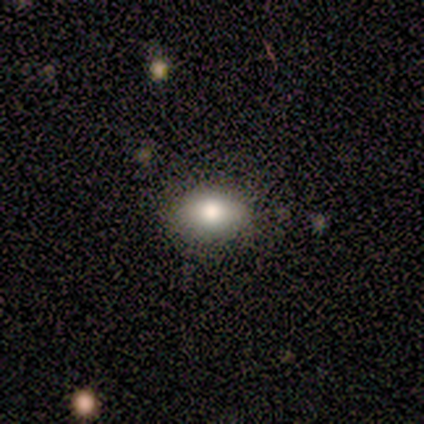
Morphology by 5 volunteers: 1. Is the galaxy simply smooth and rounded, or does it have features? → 80% smooth, 20% star or artifact, 0% featured or disk.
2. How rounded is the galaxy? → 100% in between, 0% round, 0% cigar-shaped.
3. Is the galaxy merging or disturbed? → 50% none, 25% minor disturbance, 25% merger, 0% major disturbance.